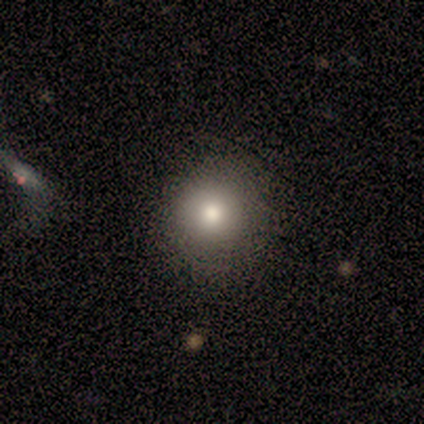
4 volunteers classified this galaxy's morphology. Overall: smooth (100%). How rounded: round (75%). Merging: none (100%).